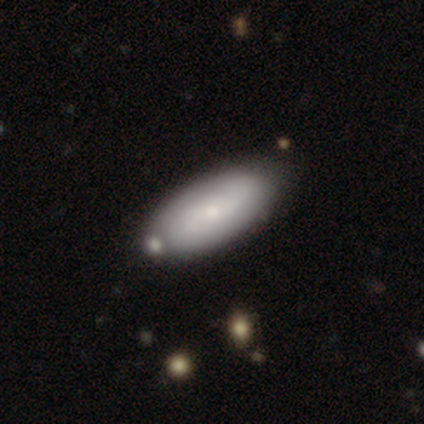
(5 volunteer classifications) This appears to be a smooth galaxy with no disk features (100%) that is in between round and cigar-shaped (80%). Merging: none (80%).